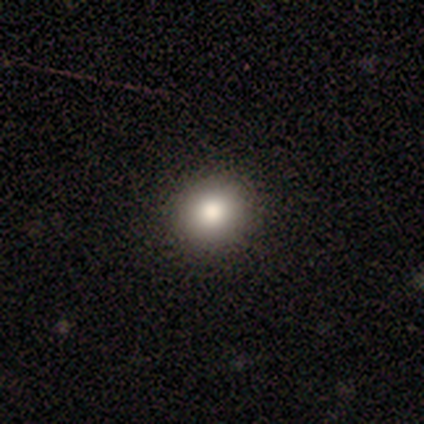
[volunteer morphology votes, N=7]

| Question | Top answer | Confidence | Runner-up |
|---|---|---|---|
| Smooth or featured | smooth | 86% | star or artifact (14%) |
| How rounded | round | 67% | in between (33%) |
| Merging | none | 100% | — |